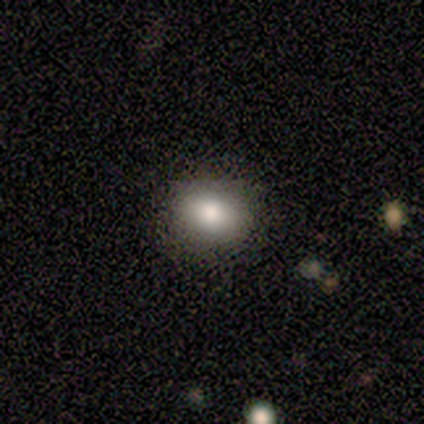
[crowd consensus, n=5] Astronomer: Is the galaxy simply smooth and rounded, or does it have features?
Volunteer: smooth — 100%.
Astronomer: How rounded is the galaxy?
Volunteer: round — 60% (runner-up: in between, 40%).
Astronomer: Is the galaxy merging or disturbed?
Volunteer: none — 60% (runner-up: minor disturbance, 40%).